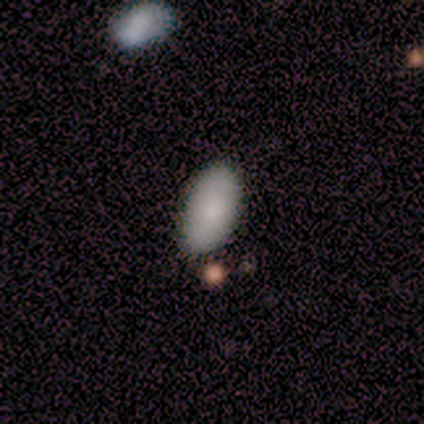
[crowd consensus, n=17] Overall: smooth (88%). How rounded: in between (93%). Merging: none (76%).